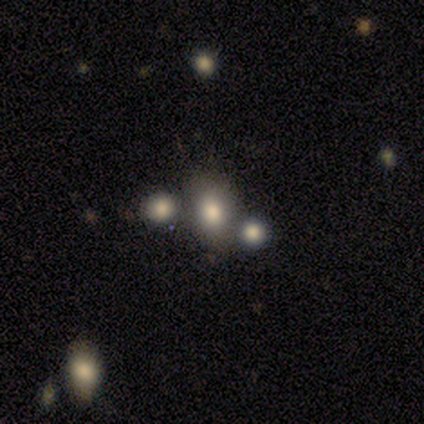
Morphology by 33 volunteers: Smooth or featured? smooth (67%)
How rounded? in between (68%)
Merging? none (44%)